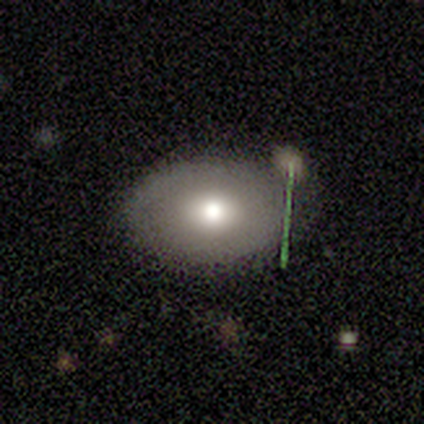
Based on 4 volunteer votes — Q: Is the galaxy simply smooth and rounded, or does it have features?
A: smooth — 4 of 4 (100%).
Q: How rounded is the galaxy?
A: in between — 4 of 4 (100%).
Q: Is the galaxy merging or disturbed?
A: merger — 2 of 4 (50%).